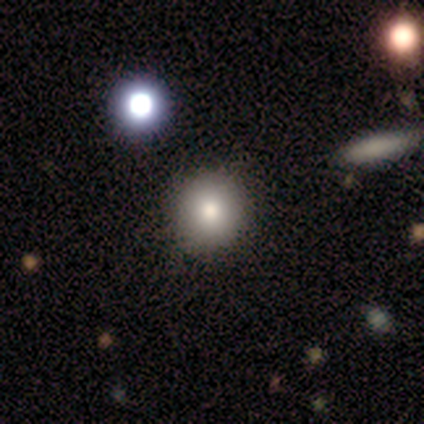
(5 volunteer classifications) This is likely a smooth galaxy (60%). How rounded: clearly round (100%). Merging: clearly none (100%).